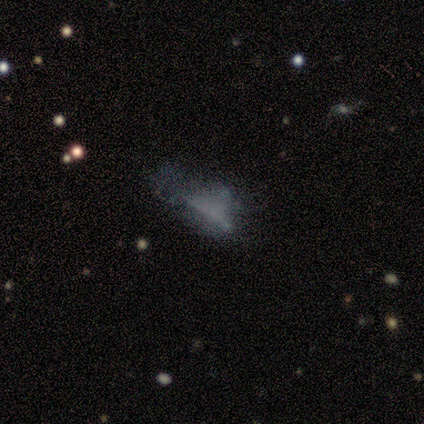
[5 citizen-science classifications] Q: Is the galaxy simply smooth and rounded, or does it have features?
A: smooth — 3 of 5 (60%).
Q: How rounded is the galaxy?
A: in between — 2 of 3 (67%).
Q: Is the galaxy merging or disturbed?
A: none — 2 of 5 (40%, tied with minor disturbance).